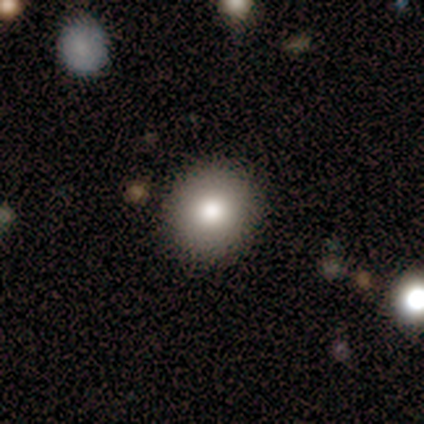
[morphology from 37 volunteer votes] type=smooth (70%); roundness=round (100%); merging=none (88%).